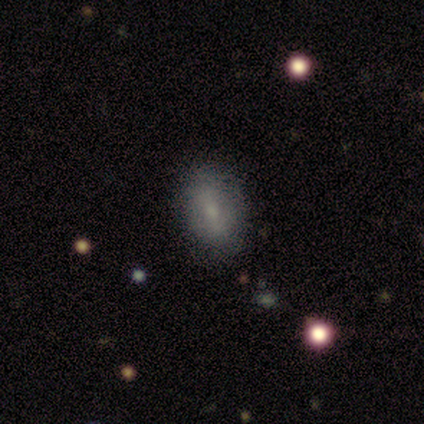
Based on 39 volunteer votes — smooth 72%, featured or disk 26%, star or artifact 3%. Down the decision tree: how rounded — in between (93%); merging — none (66%).